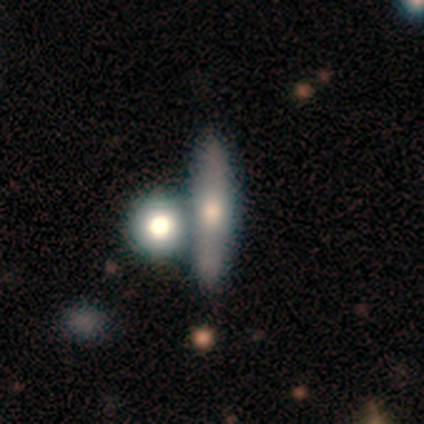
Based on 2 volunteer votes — Volunteers were most divided on "smooth or featured" (2-way tie): smooth: 50%, featured or disk: 50%, star or artifact: 0%; "merging" (2-way tie): none: 50%, minor disturbance: 50%, major disturbance: 0%, merger: 0%. More confident: how rounded — cigar-shaped (100%).